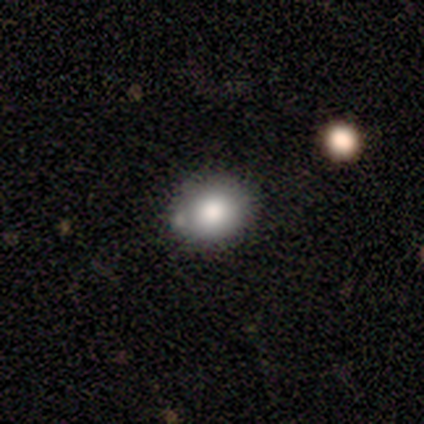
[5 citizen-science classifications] Smooth or featured: smooth — 80% (featured or disk — 20%)
How rounded: in between — 75% (round — 25%)
Merging: minor disturbance — 60% (none — 40%)